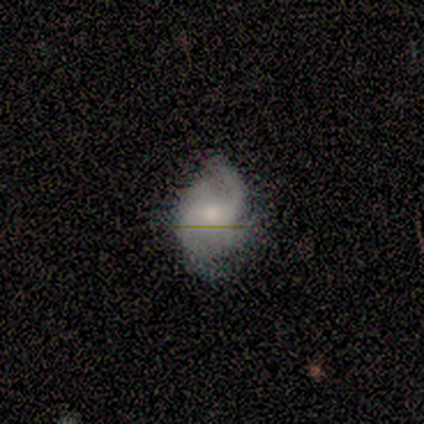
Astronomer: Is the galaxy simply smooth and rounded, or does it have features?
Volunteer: featured or disk — 60% (runner-up: smooth, 40%).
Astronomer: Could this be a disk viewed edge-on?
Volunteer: no — 100%.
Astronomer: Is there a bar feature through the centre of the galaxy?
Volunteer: no — 67%.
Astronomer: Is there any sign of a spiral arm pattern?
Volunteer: yes — 100%.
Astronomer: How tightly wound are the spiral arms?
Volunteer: loose — 67%.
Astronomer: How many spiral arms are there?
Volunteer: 1 — 33%, tied with 3 and can't tell at 33%.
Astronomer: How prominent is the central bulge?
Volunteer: small — 67%.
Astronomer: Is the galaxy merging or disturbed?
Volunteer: none — 80%.